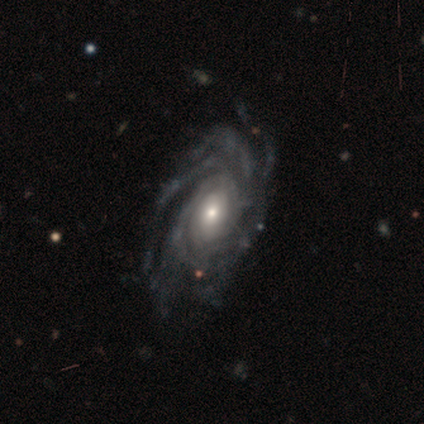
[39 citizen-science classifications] This appears to be a featured or disk galaxy (90%) with no bar (79%), more than 4 (55%) tight (67%) spiral arms (97%) and a small central bulge (44%). Merging: none (74%).